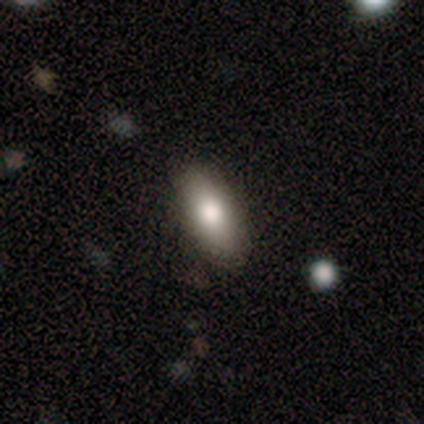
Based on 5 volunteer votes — Smooth or featured: smooth — 80% (featured or disk — 20%)
How rounded: in between — 75% (cigar-shaped — 25%)
Merging: none — 100%